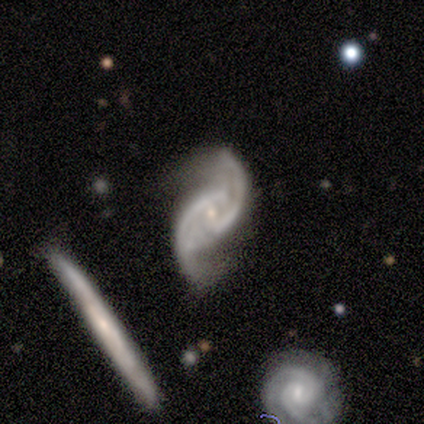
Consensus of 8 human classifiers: Overall: featured or disk (88%). Edge-on disk: no (100%). Bar: no (43%; strong 29%). Spiral arms: yes (100%). Spiral arm count: 2 (100%). Spiral winding: loose (71%). Bulge size: small (43%; moderate 29%). Merging: none (57%; minor disturbance 29%).